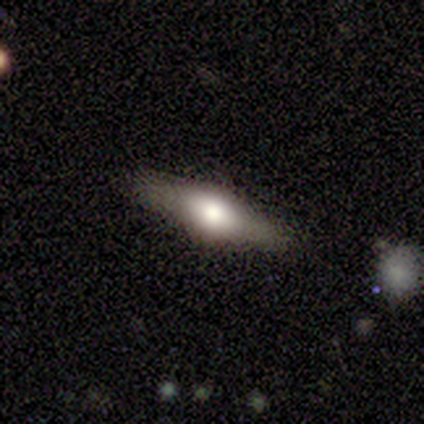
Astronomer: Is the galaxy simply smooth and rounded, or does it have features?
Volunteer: featured or disk — 80%.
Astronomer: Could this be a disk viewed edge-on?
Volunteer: yes — 100%.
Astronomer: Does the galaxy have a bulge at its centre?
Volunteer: rounded — 75%.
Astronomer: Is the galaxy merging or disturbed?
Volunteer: none — 100%.